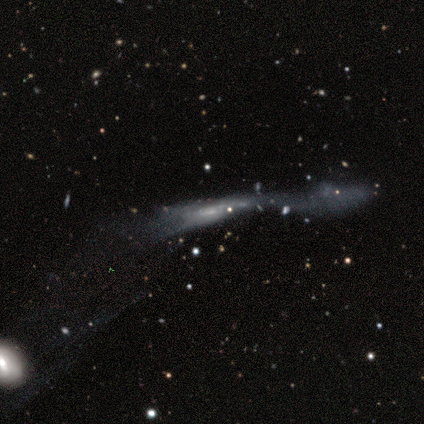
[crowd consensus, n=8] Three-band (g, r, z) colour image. It shows a featured or disk galaxy (75%) viewed edge-on (50%, tied with no) with no central bulge (100%). Merging: major disturbance (50%).